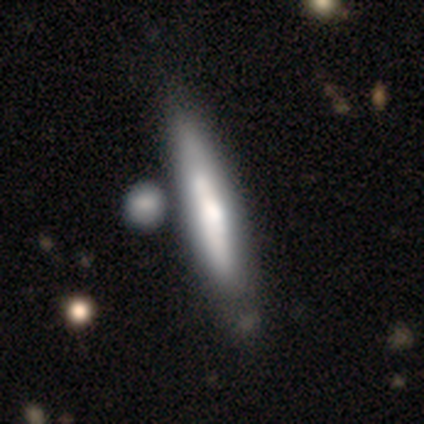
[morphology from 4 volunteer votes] A featured or disk galaxy (75%) with no bar (100%), medium (100%) spiral arms (50%, tied with no) and a moderate central bulge (50%, tied with small). Merging: none (75%).